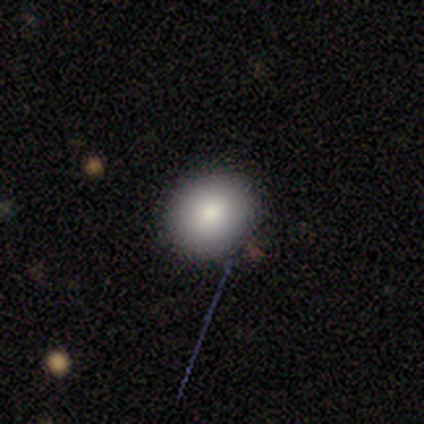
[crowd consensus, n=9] Smooth or featured? smooth (89%)
How rounded? round (62%)
Merging? none (100%)